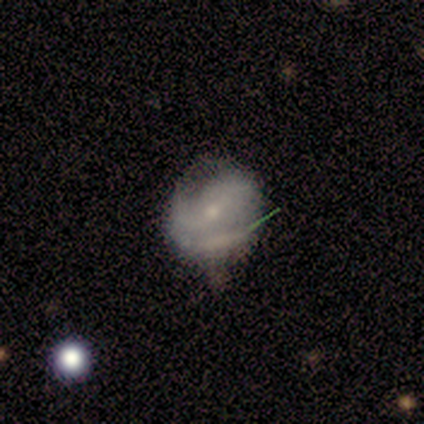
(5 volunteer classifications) This appears to be a featured or disk galaxy (60%) with no bar (67%), 1 (67%) medium (67%) spiral arms (100%) and a small central bulge (67%). Merging: minor disturbance (50%).